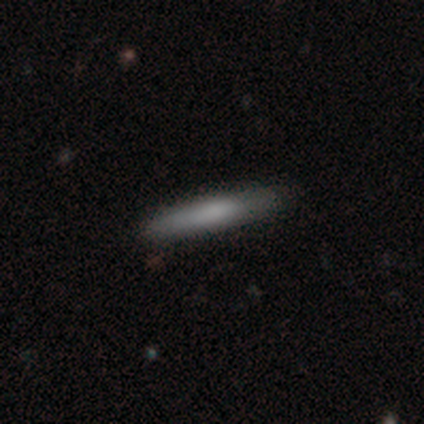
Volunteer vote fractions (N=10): This appears to be a smooth galaxy with no disk features (70%) that is cigar-shaped (100%). Merging: none (90%).